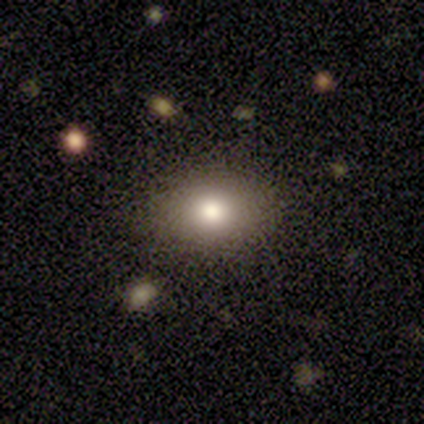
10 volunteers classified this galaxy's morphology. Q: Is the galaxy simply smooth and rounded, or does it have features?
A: smooth — 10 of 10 (100%).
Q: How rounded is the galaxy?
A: in between — 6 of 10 (60%).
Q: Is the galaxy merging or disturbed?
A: none — 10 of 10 (100%).